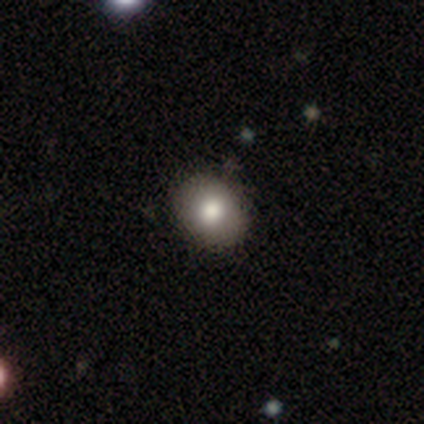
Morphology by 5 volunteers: This is clearly a smooth galaxy (80%). How rounded: likely in between (75%). Merging: possibly none (50%, tied with minor disturbance).